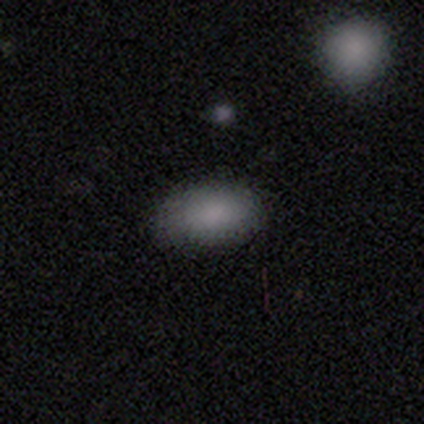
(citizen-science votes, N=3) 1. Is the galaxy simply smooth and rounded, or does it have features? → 100% smooth, 0% featured or disk, 0% star or artifact.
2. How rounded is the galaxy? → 100% in between, 0% round, 0% cigar-shaped.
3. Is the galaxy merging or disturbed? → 67% none, 33% minor disturbance, 0% major disturbance, 0% merger.